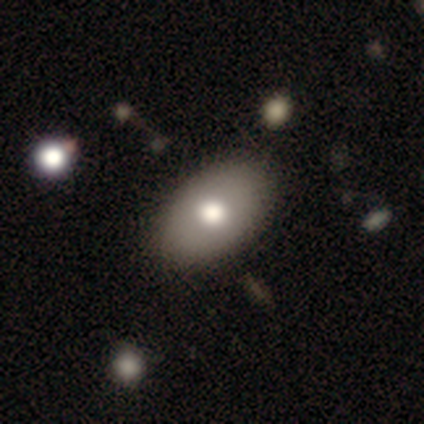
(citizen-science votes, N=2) smooth-or-featured: smooth: 100% | featured or disk: 0% | star or artifact: 0%
  how-rounded: in between: 100% | round: 0% | cigar-shaped: 0%
  merging: none: 100% | minor disturbance: 0% | major disturbance: 0% | merger: 0%